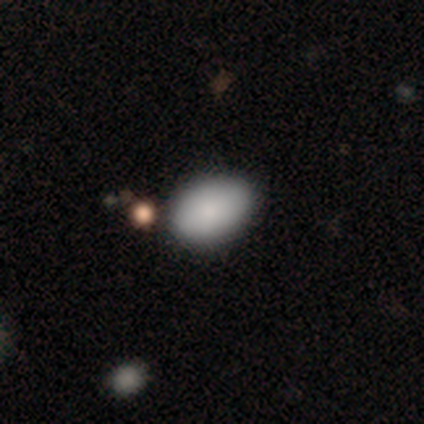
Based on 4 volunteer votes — smooth_or_featured: smooth (p=1.00)
how_rounded: in between (p=1.00)
merging: none (p=1.00)